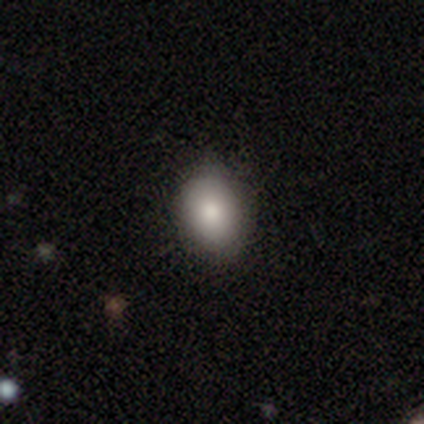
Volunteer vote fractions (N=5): smooth 100%, featured or disk 0%, star or artifact 0%. Down the decision tree: how rounded — round (60%); merging — none (100%).